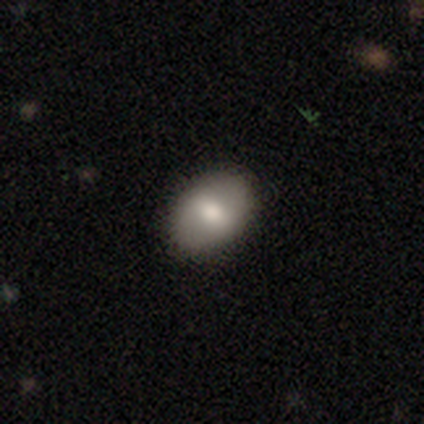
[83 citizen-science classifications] A smooth galaxy with no disk features (77%) that is in between round and cigar-shaped (84%).

Vote fractions:
- Smooth or featured? smooth: 77% / featured or disk: 13% / star or artifact: 10%
- How rounded? in between: 84% / round: 16% / cigar-shaped: 0%
- Merging? none: 91% / minor disturbance: 7% / major disturbance: 1% / merger: 1%